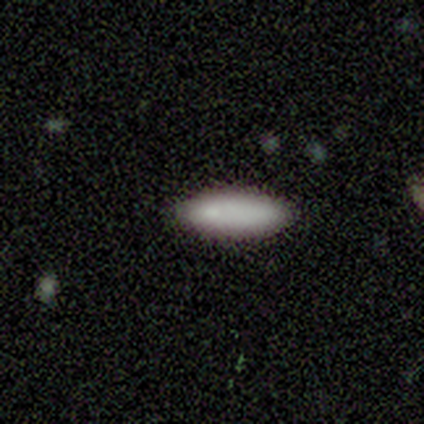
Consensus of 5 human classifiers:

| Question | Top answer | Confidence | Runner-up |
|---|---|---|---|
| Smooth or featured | smooth | 100% | — |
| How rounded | in between | 80% | cigar-shaped (20%) |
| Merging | none | 100% | — |